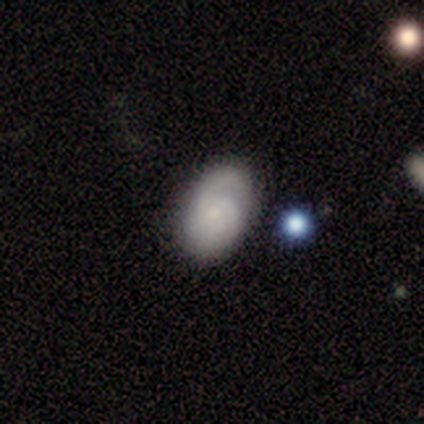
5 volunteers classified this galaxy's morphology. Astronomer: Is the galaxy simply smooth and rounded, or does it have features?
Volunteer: smooth — 40%, tied with featured or disk at 40%.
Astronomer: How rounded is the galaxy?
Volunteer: in between — 100%.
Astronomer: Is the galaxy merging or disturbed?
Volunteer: none — 75%.